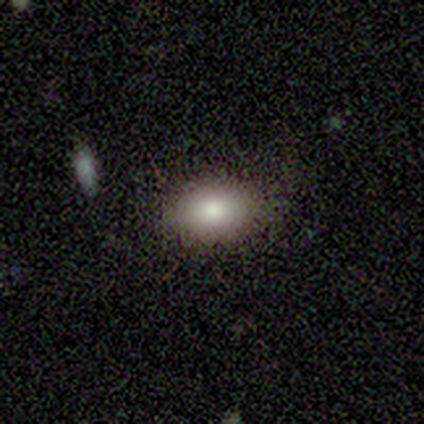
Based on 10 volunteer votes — Overall: smooth (90%). How rounded: in between (100%). Merging: none (78%).